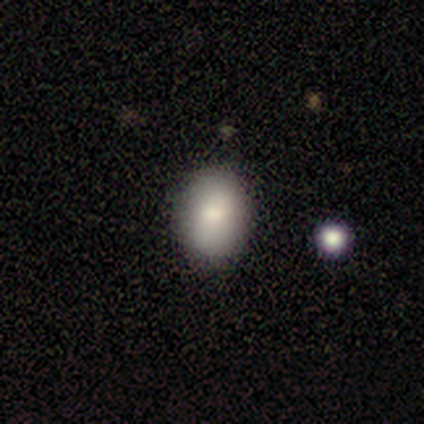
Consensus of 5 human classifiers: A smooth galaxy with no disk features (80%) that is in between round and cigar-shaped (100%). Merging: none (80%).